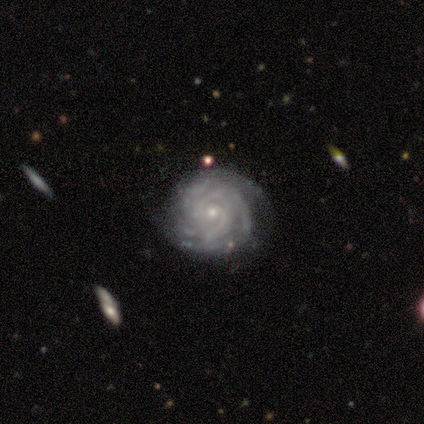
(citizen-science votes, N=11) A featured or disk galaxy (91%) with no bar (67%), 4 (33%, tied with can't tell) tight (100%) spiral arms (100%) and a small central bulge (89%). Merging: none (82%).